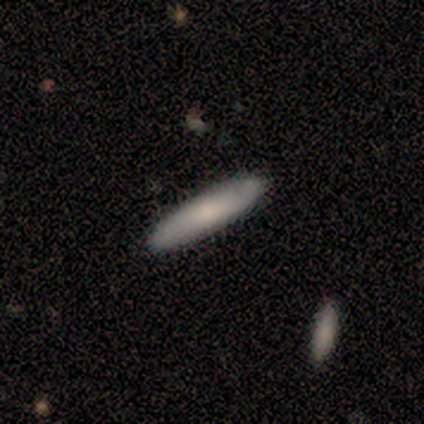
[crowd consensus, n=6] smooth_or_featured: smooth (p=0.83) [alt: featured or disk p=0.17]
how_rounded: in between (p=0.60) [alt: cigar-shaped p=0.40]
merging: none (p=0.67) [alt: minor disturbance p=0.33]